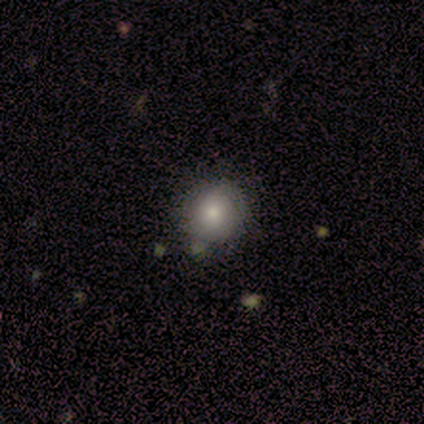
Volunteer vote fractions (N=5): Smooth or featured?
  - smooth: 80% *
  - star or artifact: 20%
  - featured or disk: 0%
How rounded?
  - round: 75% *
  - in between: 25%
  - cigar-shaped: 0%
Merging?
  - none: 100% *
  - minor disturbance: 0%
  - major disturbance: 0%
  - merger: 0%